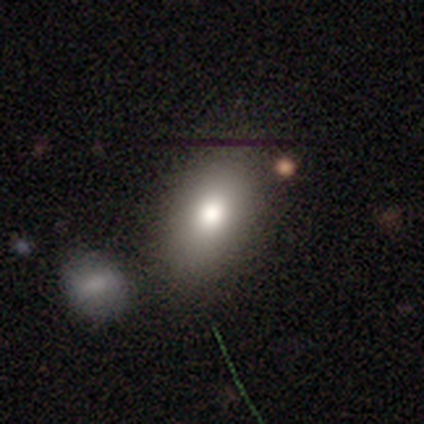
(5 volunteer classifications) This is clearly a smooth galaxy (80%). How rounded: likely in between (75%). Merging: likely minor disturbance (60%).